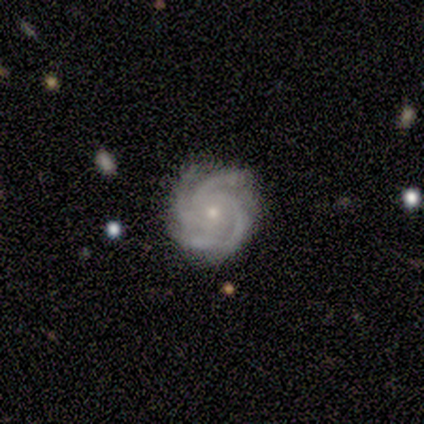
This appears to be a featured or disk galaxy (100%) with no bar (60%), 4 (80%) tight (100%) spiral arms (100%) and a small central bulge (100%). Merging: none (100%).